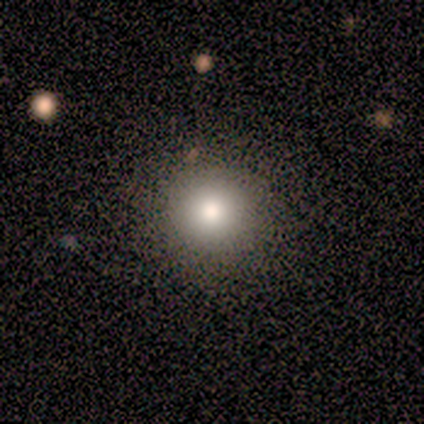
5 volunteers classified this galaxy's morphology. Smooth or featured? smooth (80%)
How rounded? round (100%)
Merging? none (100%)